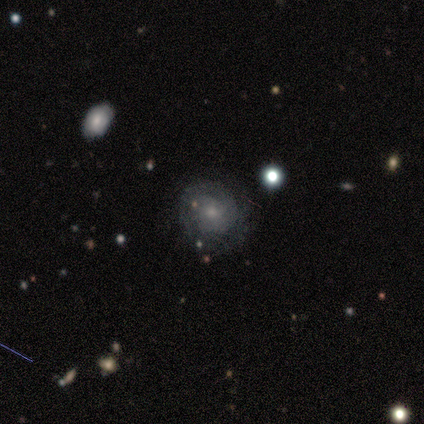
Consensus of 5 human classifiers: A featured or disk galaxy (60%) with no bar (67%), more than 4 (50%, tied with can't tell) tight (50%, tied with loose) spiral arms (67%) and a small central bulge (100%).

Vote fractions:
- Smooth or featured? featured or disk: 60% / smooth: 40% / star or artifact: 0%
- Edge-on disk? no: 100% / yes: 0%
- Bar? no: 67% / weak: 33% / strong: 0%
- Spiral arms? yes: 67% / no: 33%
- Spiral winding? tight: 50% (tied) / loose: 50% (tied) / medium: 0%
- Spiral arm count? more than 4: 50% (tied) / can't tell: 50% (tied) / 1: 0% / 2: 0% / 3: 0% / 4: 0%
- Bulge size? small: 100% / dominant: 0% / large: 0% / moderate: 0% / none: 0%
- Merging? none: 80% / minor disturbance: 20% / major disturbance: 0% / merger: 0%